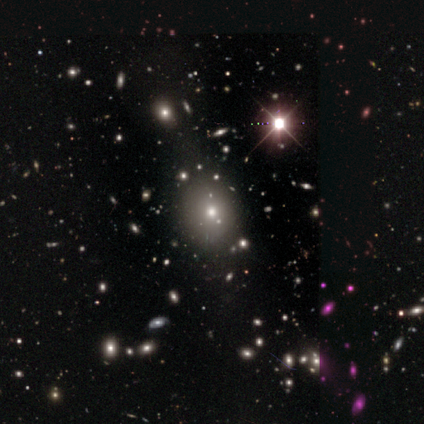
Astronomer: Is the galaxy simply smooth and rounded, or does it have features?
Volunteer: smooth — 46% (runner-up: star or artifact, 38%).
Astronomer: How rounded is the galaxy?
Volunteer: in between — 67%.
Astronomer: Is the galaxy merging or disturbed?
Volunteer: none — 75%.